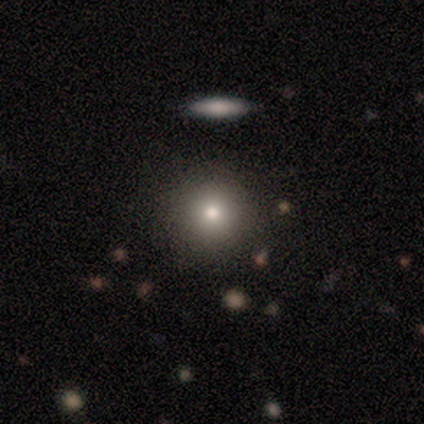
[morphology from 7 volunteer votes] A featured or disk galaxy (57%) with no bar (100%), no spiral arms (100%) and a moderate central bulge (75%). Merging: none (71%).